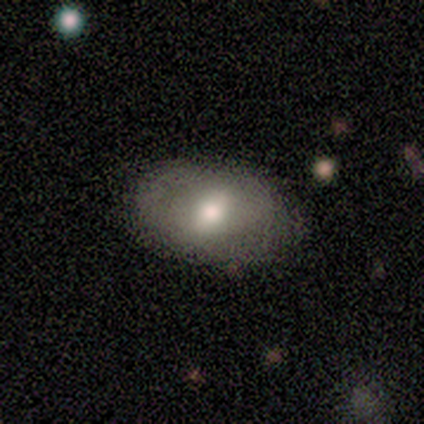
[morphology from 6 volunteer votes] This appears to be a smooth galaxy with no disk features (67%) that is in between round and cigar-shaped (75%). Merging: none (67%).